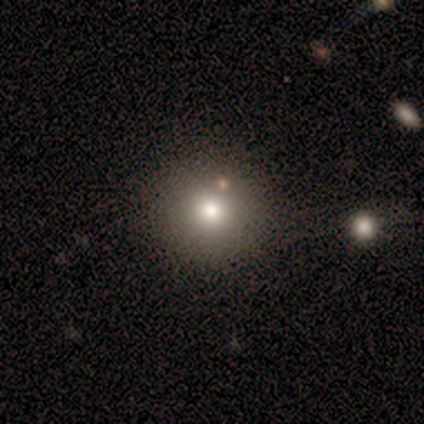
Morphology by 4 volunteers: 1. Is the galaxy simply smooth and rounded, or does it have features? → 75% smooth, 25% star or artifact, 0% featured or disk.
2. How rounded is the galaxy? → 100% round, 0% in between, 0% cigar-shaped.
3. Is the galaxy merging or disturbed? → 100% none, 0% minor disturbance, 0% major disturbance, 0% merger.